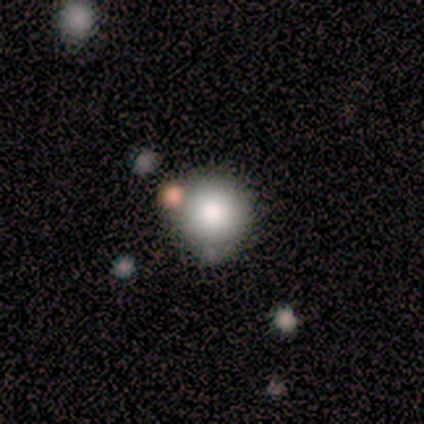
smooth-or-featured: featured or disk: 50% | smooth: 25% | star or artifact: 25%
  disk-edge-on: no: 100% | yes: 0%
    bar: no: 100% | strong: 0% | weak: 0%
    has-spiral-arms: no: 100% | yes: 0%
    bulge-size: large: 50% (tied) | moderate: 50% (tied) | dominant: 0% | small: 0% | none: 0%
  merging: none: 100% | minor disturbance: 0% | major disturbance: 0% | merger: 0%